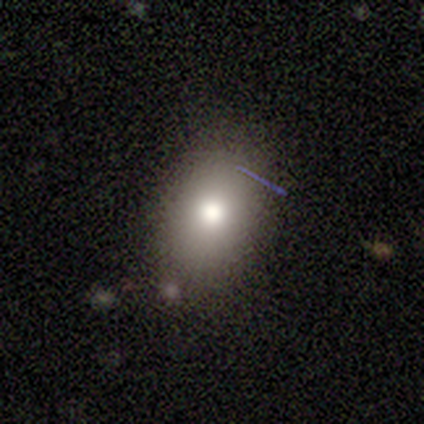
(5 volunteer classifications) This is marginally a smooth galaxy (40%, tied with star or artifact). How rounded: clearly in between (100%). Merging: likely none (67%).